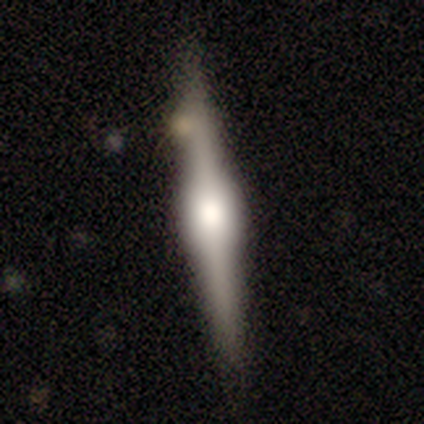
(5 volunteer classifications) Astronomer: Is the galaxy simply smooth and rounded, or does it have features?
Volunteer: featured or disk — 80%.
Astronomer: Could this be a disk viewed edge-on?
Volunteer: yes — 100%.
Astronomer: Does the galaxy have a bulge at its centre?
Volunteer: boxy — 50%, tied with rounded at 50%.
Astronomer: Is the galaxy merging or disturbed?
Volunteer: none — 100%.